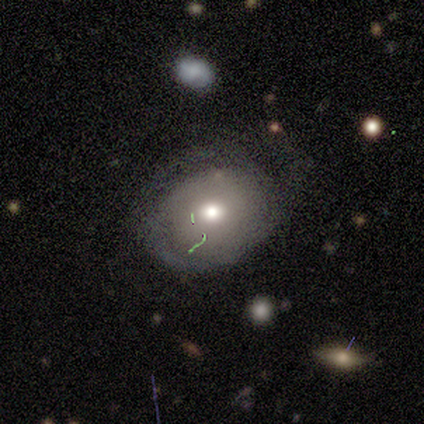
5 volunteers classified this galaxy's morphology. smooth 60%, featured or disk 40%, star or artifact 0%. Down the decision tree: how rounded — round (67%); merging — none (100%).